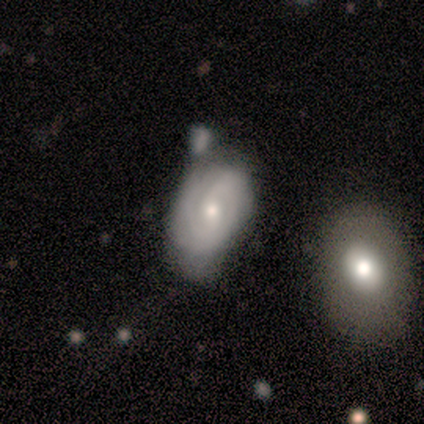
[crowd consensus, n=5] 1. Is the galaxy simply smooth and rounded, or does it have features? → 100% featured or disk, 0% smooth, 0% star or artifact.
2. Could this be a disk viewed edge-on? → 100% no, 0% yes.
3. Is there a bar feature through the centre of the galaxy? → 60% weak, 40% no, 0% strong.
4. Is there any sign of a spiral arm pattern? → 100% yes, 0% no.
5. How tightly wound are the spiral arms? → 80% tight, 20% medium, 0% loose.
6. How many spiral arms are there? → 60% can't tell, 40% 2, 0% 1, 0% 3, 0% 4, 0% more than 4.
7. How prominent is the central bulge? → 80% small, 20% moderate, 0% dominant, 0% large, 0% none.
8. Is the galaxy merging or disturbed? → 40% merger, 20% none, 20% minor disturbance, 20% major disturbance.